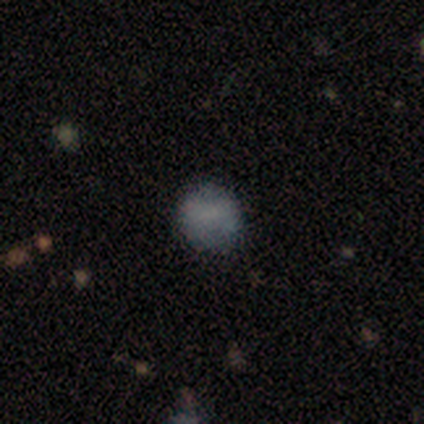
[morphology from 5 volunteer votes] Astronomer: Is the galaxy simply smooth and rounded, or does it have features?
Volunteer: smooth — 60% (runner-up: star or artifact, 40%).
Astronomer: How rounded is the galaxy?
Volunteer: round — 100%.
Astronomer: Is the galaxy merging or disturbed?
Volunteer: none — 100%.